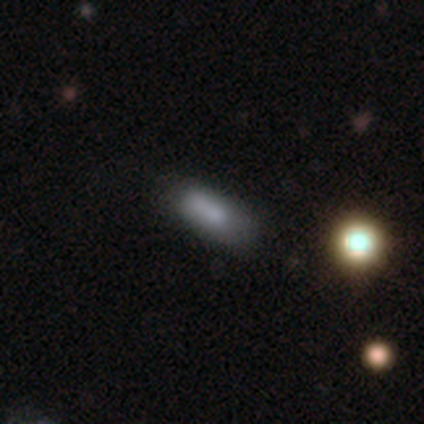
This appears to be a featured or disk galaxy (75%) with no bar (100%), no spiral arms (100%) and a moderate central bulge (50%, tied with none). Merging: none (50%, tied with minor disturbance).